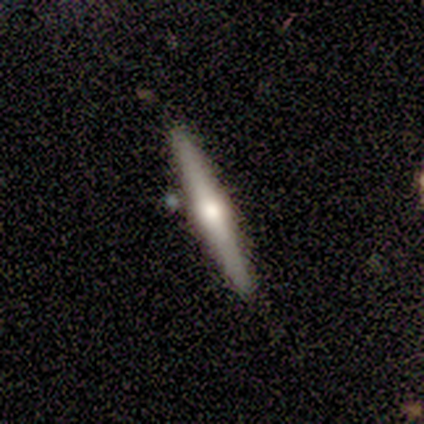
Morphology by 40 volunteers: Q: Smooth or featured?
A: featured or disk (55%); runner-up: smooth (38%)
Q: Edge-on disk?
A: yes (100%)
Q: Edge-on bulge?
A: rounded (77%); runner-up: none (14%)
Q: Merging?
A: none (84%); runner-up: minor disturbance (14%)